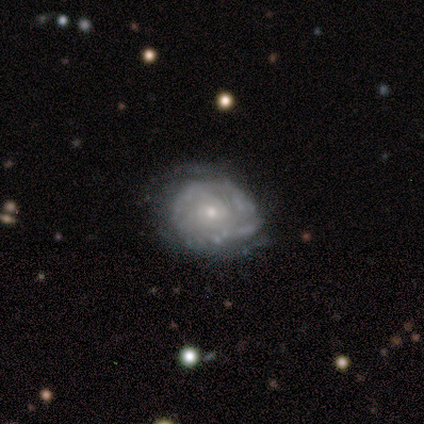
Smooth or featured? 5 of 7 (71%) said featured or disk. Edge-on disk? 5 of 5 (100%) said no. Bar? 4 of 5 (80%) said no. Spiral arms? 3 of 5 (60%) said no. Bulge size? 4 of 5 (80%) said small. Merging? 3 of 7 (43%, tied with minor disturbance) said none.